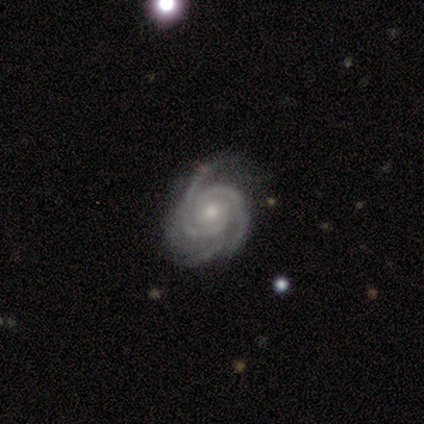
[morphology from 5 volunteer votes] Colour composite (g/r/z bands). It shows a featured or disk galaxy (100%) with no bar (75%), 2 (100%) tight (67%) spiral arms (75%) and a moderate central bulge (50%, tied with small). Merging: minor disturbance (80%).